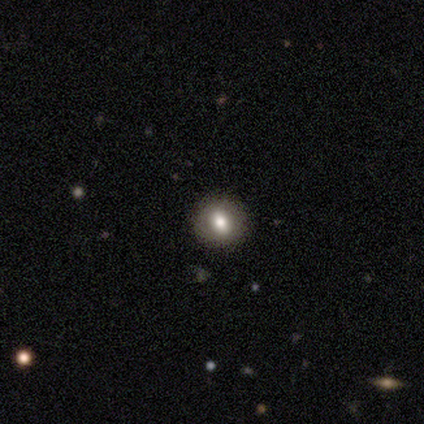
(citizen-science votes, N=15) Smooth or featured?
  - smooth: 73% *
  - featured or disk: 20%
  - star or artifact: 7%
How rounded?
  - round: 73% *
  - in between: 27%
  - cigar-shaped: 0%
Merging?
  - none: 100% *
  - minor disturbance: 0%
  - major disturbance: 0%
  - merger: 0%